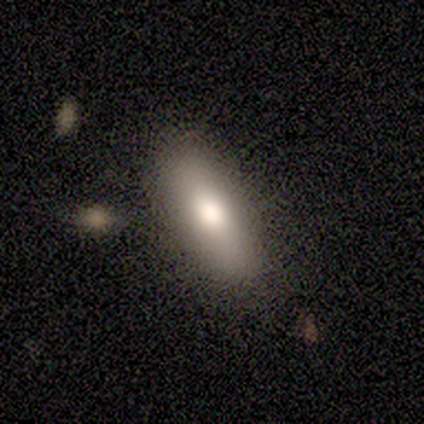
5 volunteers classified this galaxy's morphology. A smooth galaxy with no disk features (100%) that is cigar-shaped (80%). Merging: none (80%).